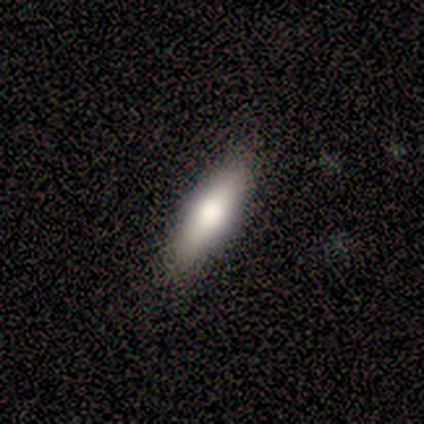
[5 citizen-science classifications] A smooth galaxy with no disk features (100%) that is cigar-shaped (60%). Merging: none (80%).